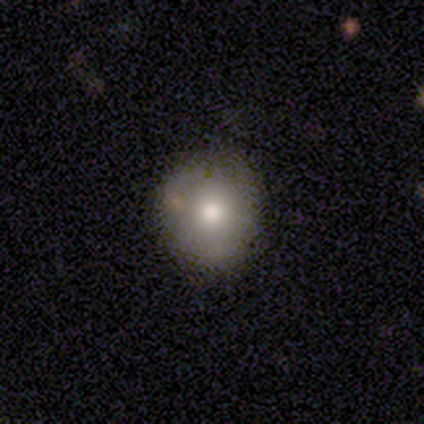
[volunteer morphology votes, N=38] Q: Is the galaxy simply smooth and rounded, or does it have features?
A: smooth — 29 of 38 (76%).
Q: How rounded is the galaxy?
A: round — 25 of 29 (86%).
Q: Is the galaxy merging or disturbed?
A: none — 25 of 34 (74%).